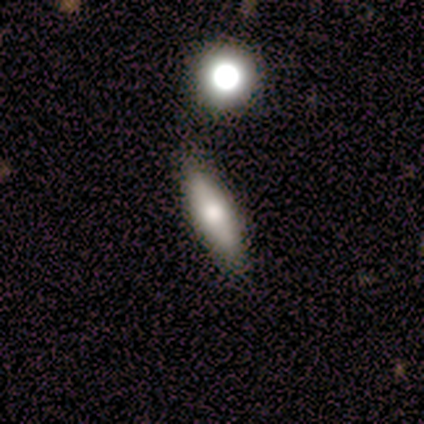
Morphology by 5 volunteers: Smooth or featured?
  - featured or disk: 100% *
  - smooth: 0%
  - star or artifact: 0%
Edge-on disk?
  - yes: 60% *
  - no: 40%
Edge-on bulge?
  - rounded: 100% *
  - boxy: 0%
  - none: 0%
Merging?
  - none: 60% *
  - minor disturbance: 40%
  - major disturbance: 0%
  - merger: 0%